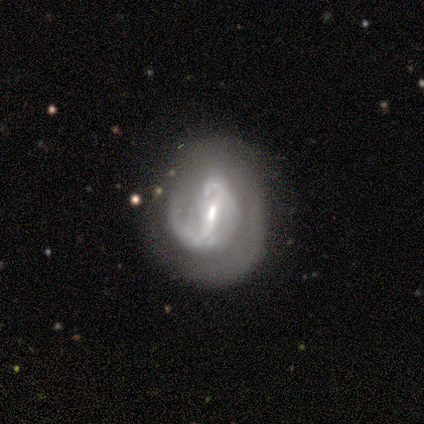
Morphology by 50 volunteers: type=featured or disk (90%); edge-on=no (100%); bar=strong (53%); spiral arms=yes (82%); winding=tight (43%); arm count=2 (49%); bulge=small (49%); merging=none (43%).